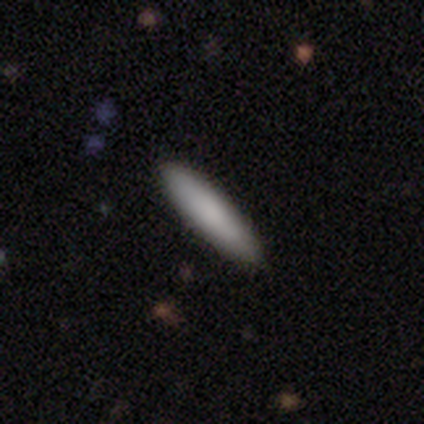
A smooth galaxy with no disk features (100%) that is in between round and cigar-shaped (100%).

Vote fractions:
- Smooth or featured? smooth: 100% / featured or disk: 0% / star or artifact: 0%
- How rounded? in between: 100% / round: 0% / cigar-shaped: 0%
- Merging? none: 100% / minor disturbance: 0% / major disturbance: 0% / merger: 0%